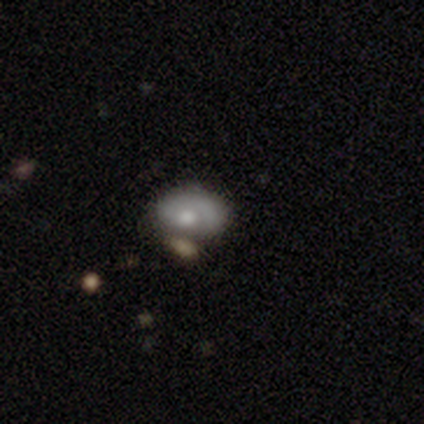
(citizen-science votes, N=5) Q: Smooth or featured?
A: smooth (60%); runner-up: featured or disk (40%)
Q: How rounded?
A: in between (67%); runner-up: round (33%)
Q: Merging?
A: none (60%); runner-up: minor disturbance (20%)